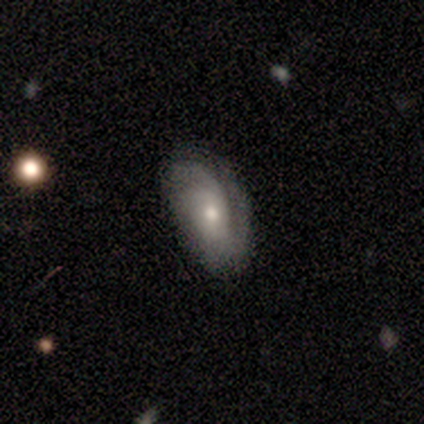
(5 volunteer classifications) featured or disk 60%, smooth 20%, star or artifact 20%. Down the decision tree: edge-on disk — no (100%); bar — no (67%); spiral arms — yes (100%); spiral arm count — 1 (67%); spiral winding — tight (67%); bulge size — moderate (67%); merging — none (50%, tied with minor disturbance).